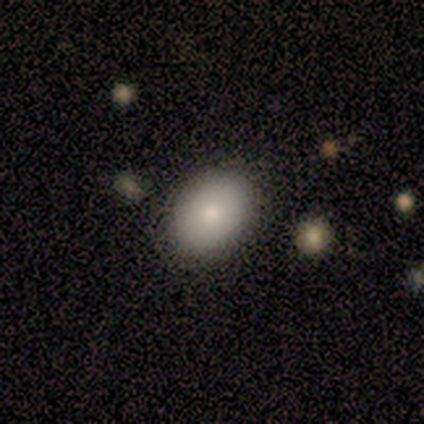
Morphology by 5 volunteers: Smooth or featured? smooth (60%)
How rounded? in between (100%)
Merging? none (60%)